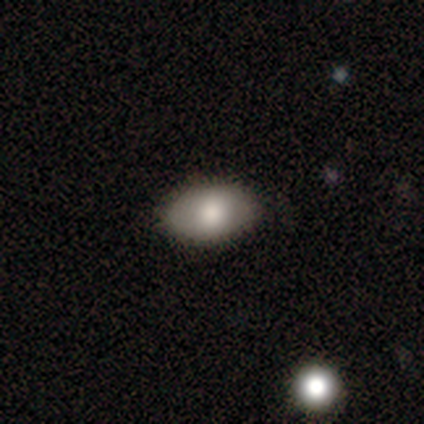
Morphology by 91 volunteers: Q: Smooth or featured?
A: smooth (84%); runner-up: featured or disk (10%)
Q: How rounded?
A: in between (88%); runner-up: round (12%)
Q: Merging?
A: none (88%); runner-up: minor disturbance (8%)